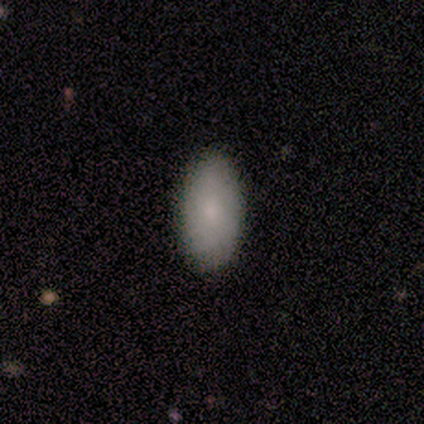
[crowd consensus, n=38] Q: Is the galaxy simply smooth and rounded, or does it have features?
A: smooth — 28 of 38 (74%).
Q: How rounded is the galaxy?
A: in between — 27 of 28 (96%).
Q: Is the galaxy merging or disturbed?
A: none — 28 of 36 (78%).